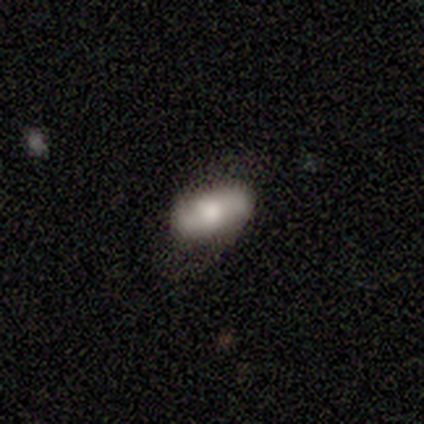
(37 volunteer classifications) A smooth galaxy with no disk features (51%) that is in between round and cigar-shaped (89%). Merging: none (68%).